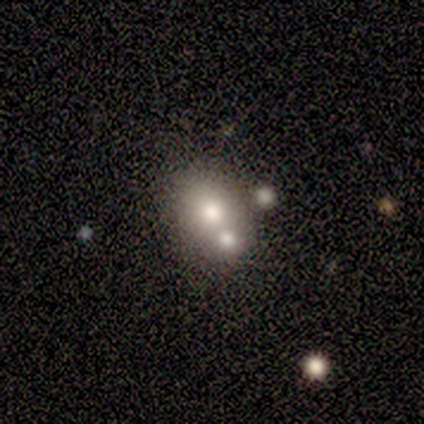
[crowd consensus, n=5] Q: Smooth or featured?
A: featured or disk (60%); runner-up: smooth (40%)
Q: Edge-on disk?
A: no (100%)
Q: Bar?
A: no (100%)
Q: Spiral arms?
A: no (100%)
Q: Bulge size?
A: large (67%); runner-up: moderate (33%)
Q: Merging?
A: merger (80%); runner-up: none (20%)